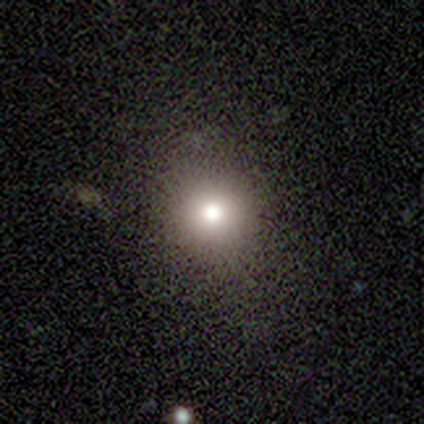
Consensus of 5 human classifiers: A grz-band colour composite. It shows a smooth galaxy with no disk features (80%) that is round (100%). Merging: none (80%).